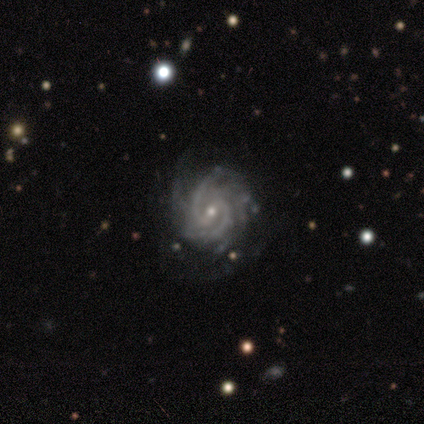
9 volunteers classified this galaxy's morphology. featured or disk 89%, star or artifact 11%, smooth 0%. Down the decision tree: edge-on disk — no (100%); bar — weak (62%); spiral arms — yes (100%); spiral arm count — 2 (50%, tied with can't tell); spiral winding — tight (62%); bulge size — small (88%); merging — none (75%).